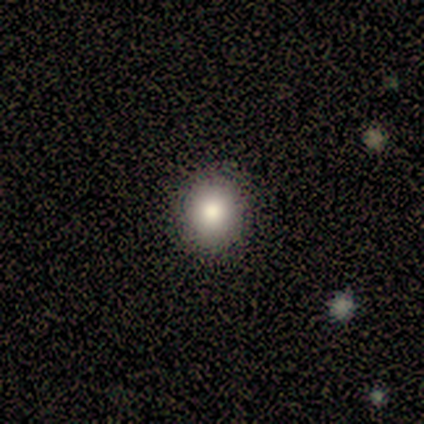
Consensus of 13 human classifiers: Smooth or featured?
  - smooth: 77% *
  - featured or disk: 15%
  - star or artifact: 8%
How rounded?
  - round: 100% *
  - in between: 0%
  - cigar-shaped: 0%
Merging?
  - none: 100% *
  - minor disturbance: 0%
  - major disturbance: 0%
  - merger: 0%